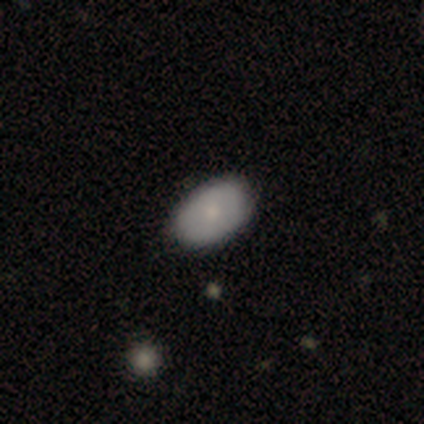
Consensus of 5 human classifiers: Q: Smooth or featured?
A: smooth (80%); runner-up: featured or disk (20%)
Q: How rounded?
A: in between (100%)
Q: Merging?
A: none (100%)